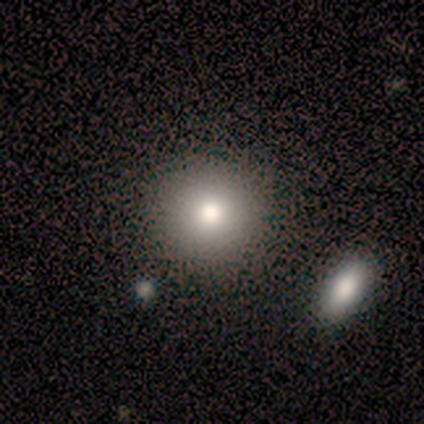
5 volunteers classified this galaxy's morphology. Smooth or featured?
  - smooth: 80% *
  - featured or disk: 20%
  - star or artifact: 0%
How rounded?
  - round: 75% *
  - in between: 25%
  - cigar-shaped: 0%
Merging?
  - none: 80% *
  - major disturbance: 20%
  - minor disturbance: 0%
  - merger: 0%